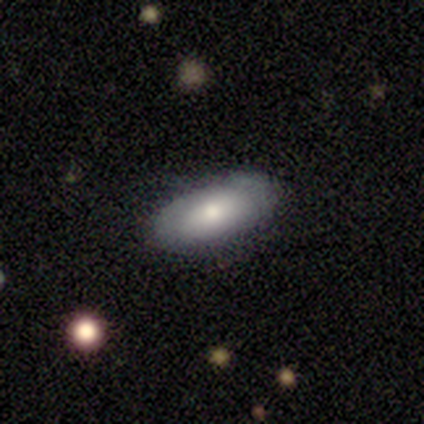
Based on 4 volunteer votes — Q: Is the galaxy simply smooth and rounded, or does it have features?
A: smooth — 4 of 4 (100%).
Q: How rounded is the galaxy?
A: in between — 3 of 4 (75%).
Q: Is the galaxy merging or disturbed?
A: none — 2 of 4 (50%).